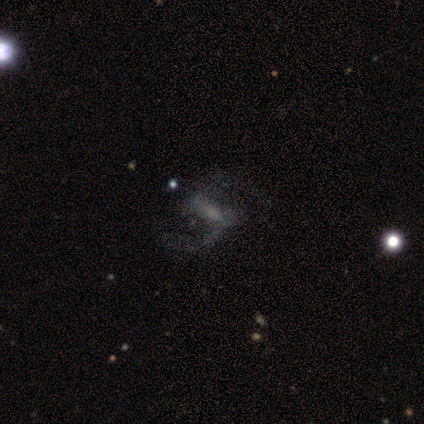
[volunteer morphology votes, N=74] Smooth or featured: featured or disk — 78% (star or artifact — 12%)
Edge-on disk: no — 95% (yes — 5%)
Bar: weak — 51% (strong — 33%)
Spiral arms: yes — 87% (no — 13%)
Spiral winding: loose — 65% (medium — 31%)
Spiral arm count: 2 — 98% (1 — 2%)
Bulge size: moderate — 42% (small — 35%)
Merging: none — 58% (major disturbance — 22%)